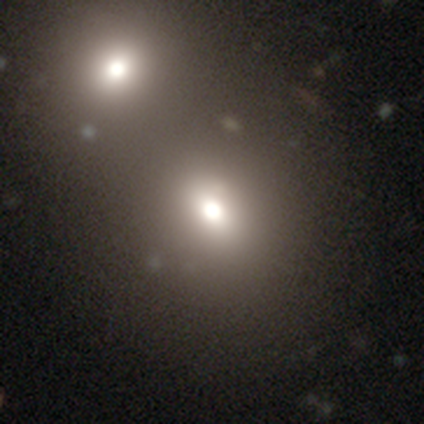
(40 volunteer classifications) A smooth galaxy with no disk features (80%) that is round (69%).

Vote fractions:
- Smooth or featured? smooth: 80% / star or artifact: 15% / featured or disk: 5%
- How rounded? round: 69% / in between: 31% / cigar-shaped: 0%
- Merging? none: 47% (tied) / merger: 47% (tied) / minor disturbance: 6% / major disturbance: 0%